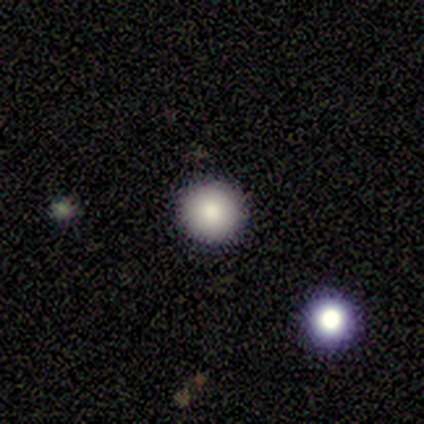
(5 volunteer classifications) Overall: smooth (80%). How rounded: round (100%). Merging: none (80%).